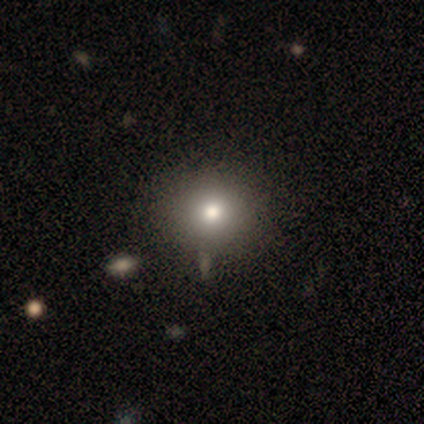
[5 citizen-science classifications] Overall: smooth (80%). How rounded: round (100%). Merging: none (75%).